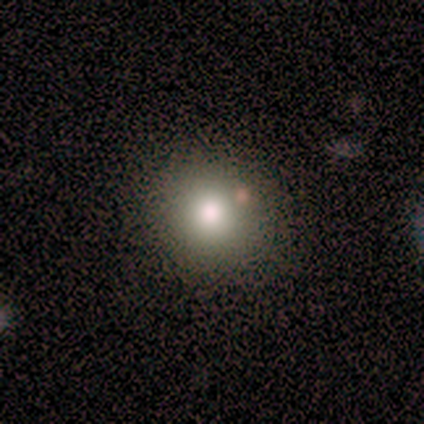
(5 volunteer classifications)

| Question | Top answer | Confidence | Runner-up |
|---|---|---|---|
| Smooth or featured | smooth | 60% | featured or disk (20%) |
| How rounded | round | 100% | — |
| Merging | none | 75% | minor disturbance (25%) |